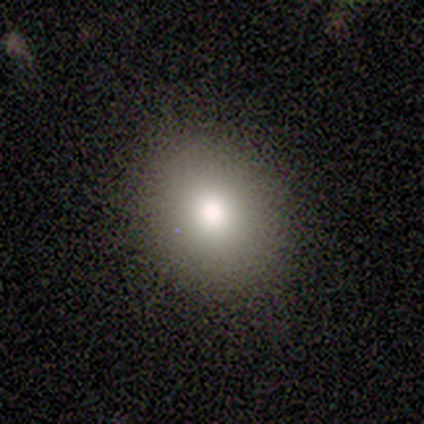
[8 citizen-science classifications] This appears to be a smooth galaxy with no disk features (100%) that is round (50%, tied with in between). Merging: none (88%).